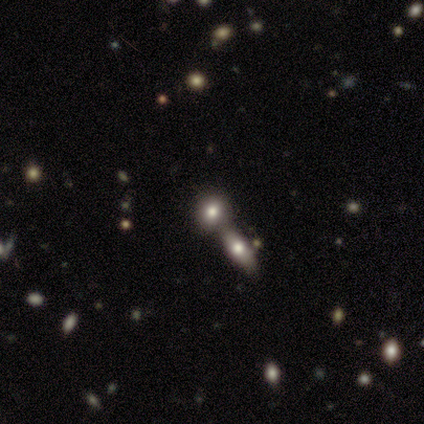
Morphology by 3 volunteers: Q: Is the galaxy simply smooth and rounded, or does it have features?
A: smooth — 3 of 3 (100%).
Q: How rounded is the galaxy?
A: round — 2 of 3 (67%).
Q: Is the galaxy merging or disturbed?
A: merger — 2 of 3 (67%).